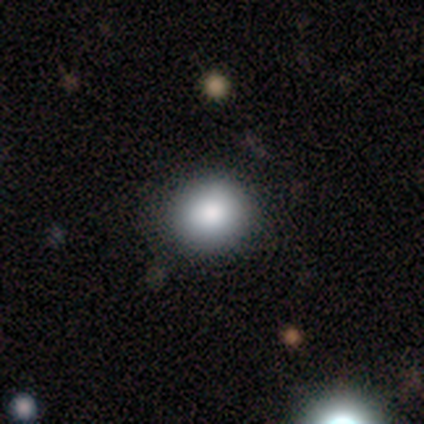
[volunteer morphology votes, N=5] smooth-or-featured: smooth: 80% | featured or disk: 20% | star or artifact: 0%
  how-rounded: round: 100% | in between: 0% | cigar-shaped: 0%
  merging: none: 100% | minor disturbance: 0% | major disturbance: 0% | merger: 0%